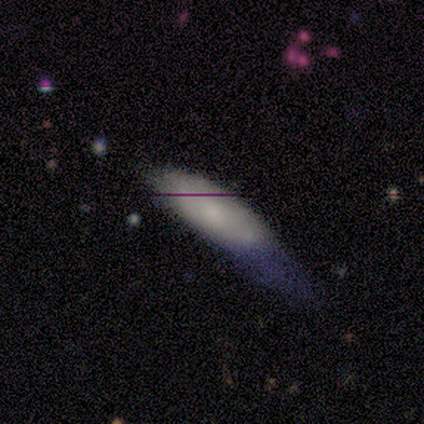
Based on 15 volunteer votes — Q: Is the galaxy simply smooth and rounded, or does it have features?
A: smooth — 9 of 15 (60%).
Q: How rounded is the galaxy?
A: cigar-shaped — 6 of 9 (67%).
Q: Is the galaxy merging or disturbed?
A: none — 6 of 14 (43%).